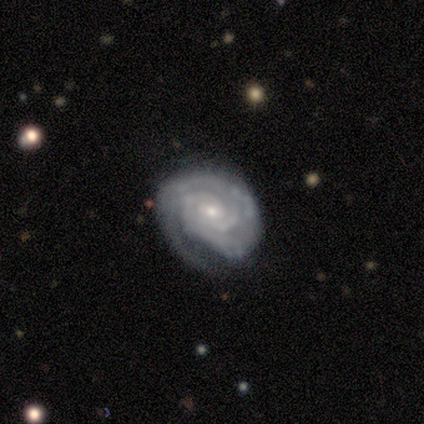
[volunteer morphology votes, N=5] Smooth or featured: featured or disk — 100%
Edge-on disk: no — 100%
Bar: no — 60% (weak — 40%)
Spiral arms: yes — 100%
Spiral winding: tight — 100%
Spiral arm count: 2 — 80% (more than 4 — 20%)
Bulge size: moderate — 80% (small — 20%)
Merging: none — 100%